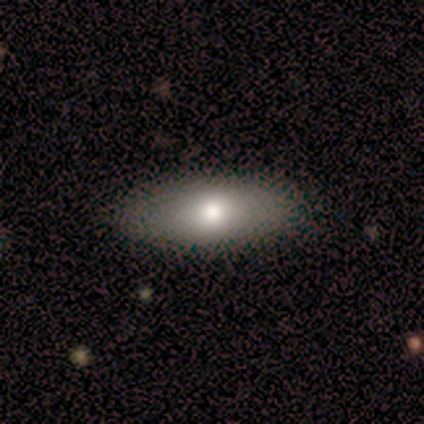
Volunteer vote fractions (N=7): A smooth galaxy with no disk features (100%) that is in between round and cigar-shaped (86%). Merging: none (100%).